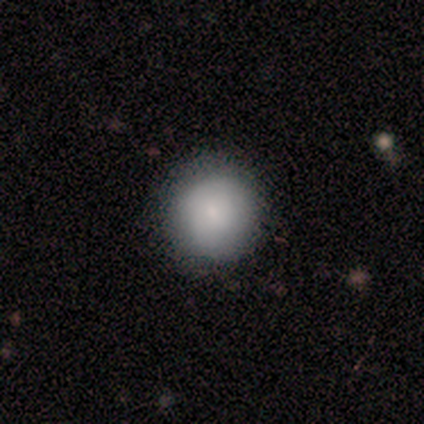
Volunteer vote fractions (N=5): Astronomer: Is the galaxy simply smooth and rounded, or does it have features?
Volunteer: smooth — 60% (runner-up: star or artifact, 40%).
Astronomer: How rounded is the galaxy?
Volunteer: round — 100%.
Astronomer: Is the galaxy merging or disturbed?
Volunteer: none — 100%.